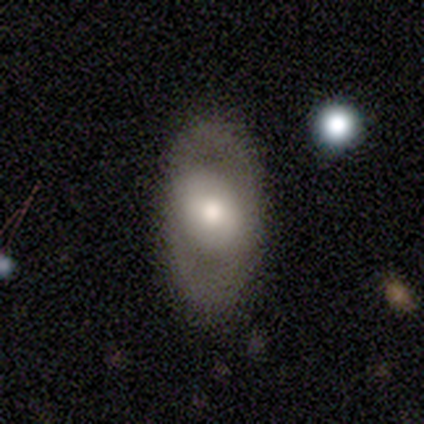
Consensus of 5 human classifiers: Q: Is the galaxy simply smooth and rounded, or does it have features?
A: smooth — 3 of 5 (60%).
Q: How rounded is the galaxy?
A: in between — 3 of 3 (100%).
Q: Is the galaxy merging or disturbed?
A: none — 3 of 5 (60%).